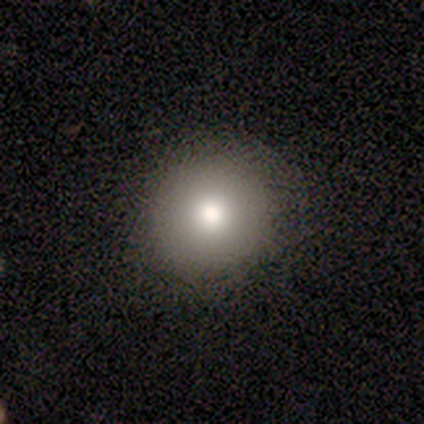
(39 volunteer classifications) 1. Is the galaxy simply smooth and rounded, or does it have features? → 77% smooth, 15% featured or disk, 8% star or artifact.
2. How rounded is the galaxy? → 97% round, 3% in between, 0% cigar-shaped.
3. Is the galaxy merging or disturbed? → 94% none, 6% minor disturbance, 0% major disturbance, 0% merger.